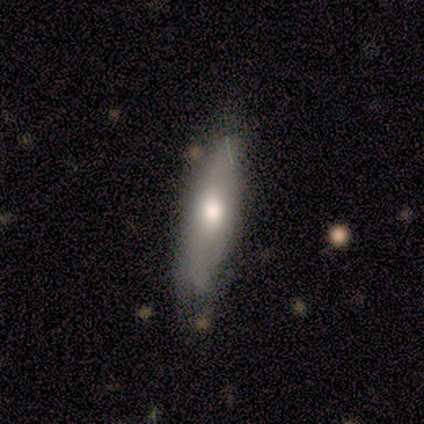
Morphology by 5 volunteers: Smooth or featured?
  - smooth: 100% *
  - featured or disk: 0%
  - star or artifact: 0%
How rounded?
  - cigar-shaped: 60% *
  - in between: 40%
  - round: 0%
Merging?
  - minor disturbance: 40% * (tied)
  - major disturbance: 40% * (tied)
  - none: 20%
  - merger: 0%